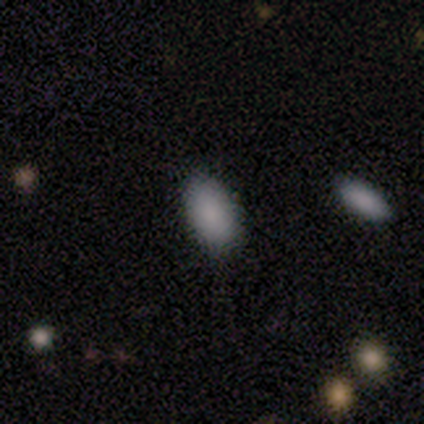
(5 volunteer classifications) Morphology: type=smooth (100%); roundness=in between (100%); merging=none (60%).